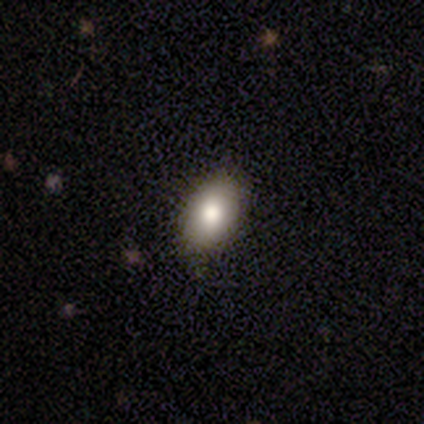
smooth_or_featured: smooth (p=0.85) [alt: featured or disk p=0.10]
how_rounded: in between (p=0.91) [alt: round p=0.07]
merging: none (p=0.49) [alt: minor disturbance p=0.08]